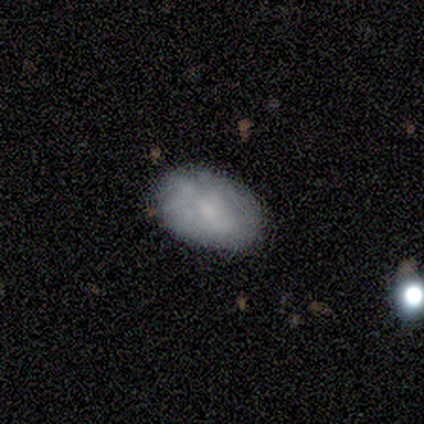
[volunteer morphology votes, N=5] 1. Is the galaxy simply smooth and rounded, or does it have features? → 60% featured or disk, 40% smooth, 0% star or artifact.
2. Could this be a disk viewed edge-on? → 100% no, 0% yes.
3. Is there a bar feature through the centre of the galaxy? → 67% weak, 33% no, 0% strong.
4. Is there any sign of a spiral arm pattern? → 67% no, 33% yes.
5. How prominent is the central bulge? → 67% small, 33% large, 0% dominant, 0% moderate, 0% none.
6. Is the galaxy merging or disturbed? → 80% none, 20% minor disturbance, 0% major disturbance, 0% merger.